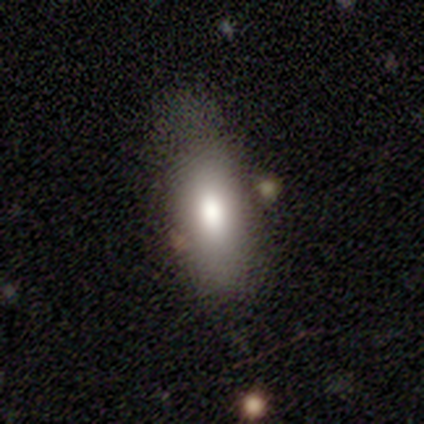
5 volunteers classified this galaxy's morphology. Smooth or featured?
  - smooth: 80% *
  - featured or disk: 20%
  - star or artifact: 0%
How rounded?
  - in between: 75% *
  - cigar-shaped: 25%
  - round: 0%
Merging?
  - none: 60% *
  - minor disturbance: 20%
  - merger: 20%
  - major disturbance: 0%